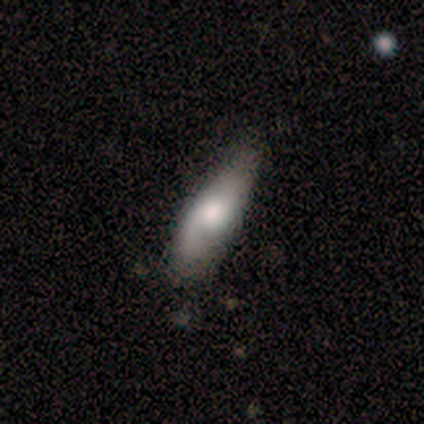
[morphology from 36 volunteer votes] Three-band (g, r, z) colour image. It shows a smooth galaxy with no disk features (50%) that is in between round and cigar-shaped (56%). Merging: none (58%).